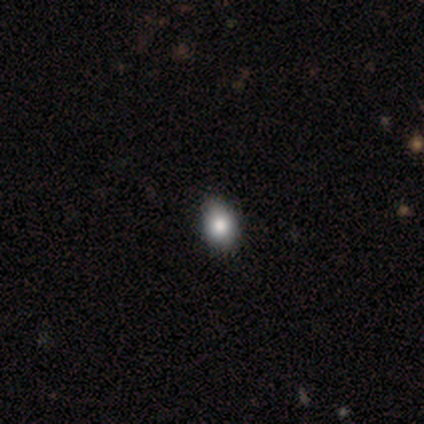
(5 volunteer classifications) smooth 80%, featured or disk 20%, star or artifact 0%. Down the decision tree: how rounded — round (75%); merging — none (60%).